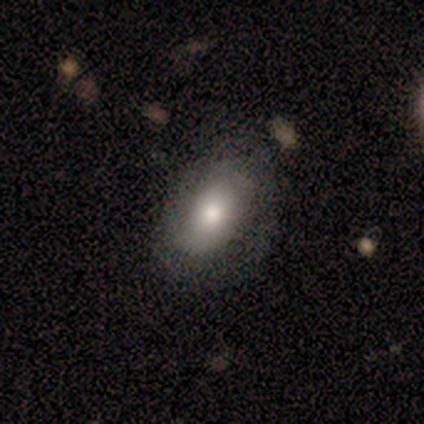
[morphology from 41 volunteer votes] smooth-or-featured: smooth: 56% | featured or disk: 34% | star or artifact: 10%
  how-rounded: in between: 100% | round: 0% | cigar-shaped: 0%
  merging: none: 68% | major disturbance: 11% | minor disturbance: 8% | merger: 0%